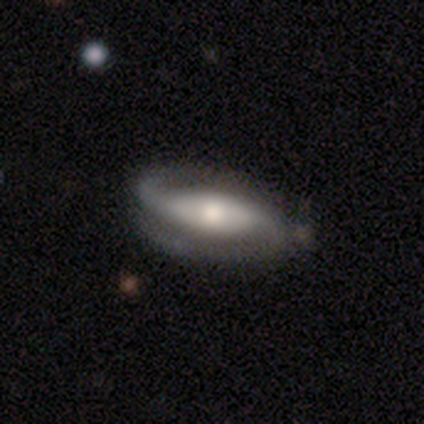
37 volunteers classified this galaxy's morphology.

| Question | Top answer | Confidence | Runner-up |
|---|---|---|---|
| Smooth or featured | featured or disk | 84% | smooth (11%) |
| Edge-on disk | no | 90% | yes (10%) |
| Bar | strong | 46% | no (36%) |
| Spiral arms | yes | 100% | — |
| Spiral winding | medium | 39% | tight (36%) |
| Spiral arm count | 2 | 93% | 1 (7%) |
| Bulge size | moderate | 61% | small (21%) |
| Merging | none | 57% | minor disturbance (11%) |